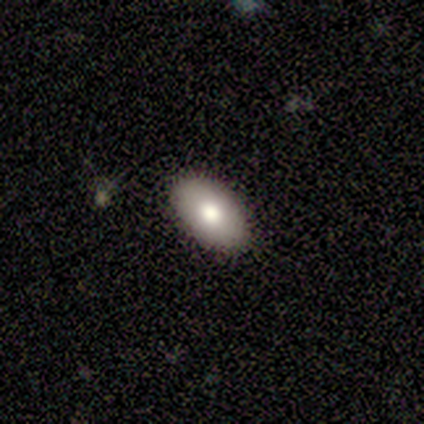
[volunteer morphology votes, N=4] This appears to be a smooth galaxy with no disk features (75%) that is in between round and cigar-shaped (100%). Merging: none (100%).